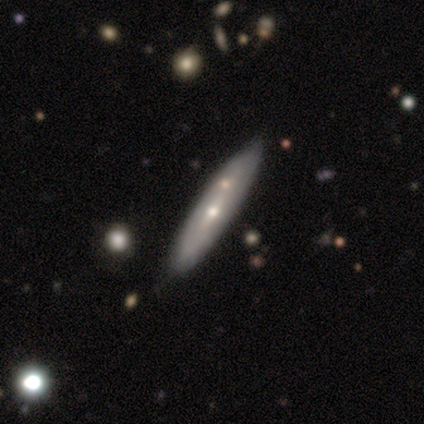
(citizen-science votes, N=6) Smooth or featured? smooth (50%, tied with featured or disk)
How rounded? cigar-shaped (100%)
Merging? none (100%)